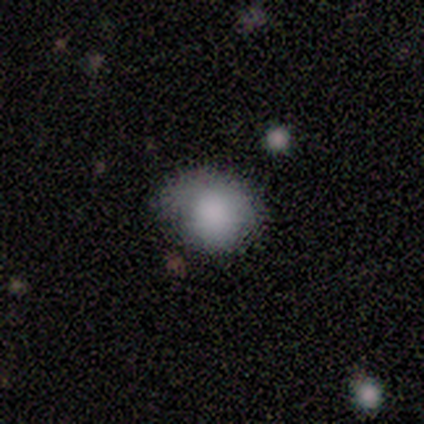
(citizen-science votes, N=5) This is clearly a smooth galaxy (80%). How rounded: clearly round (100%). Merging: likely none (60%).